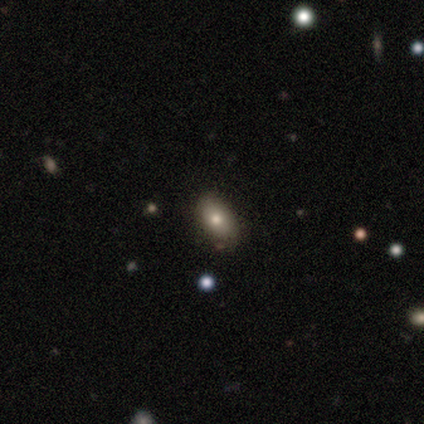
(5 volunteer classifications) smooth_or_featured: smooth (p=0.40) [tied with: star or artifact p=0.40]
how_rounded: in between (p=1.00)
merging: none (p=1.00)